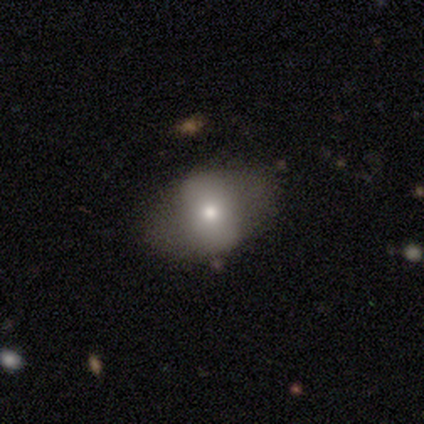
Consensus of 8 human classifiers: A smooth galaxy with no disk features (62%) that is in between round and cigar-shaped (80%). Merging: none (86%).